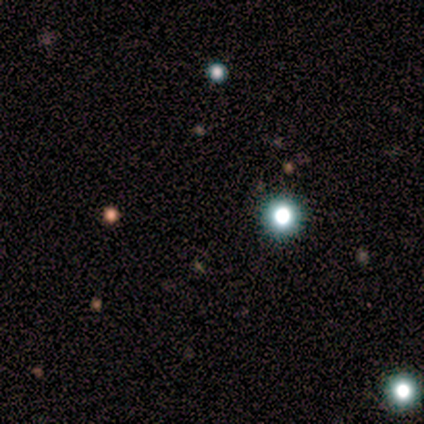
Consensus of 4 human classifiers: Morphology: type=star or artifact (75%).